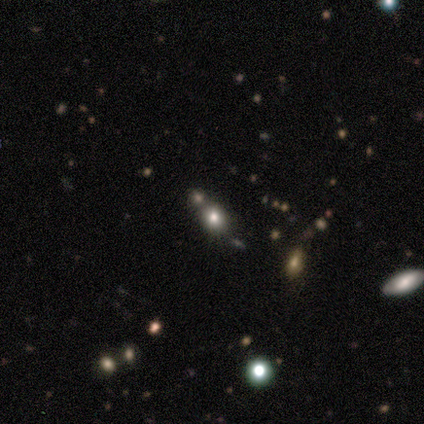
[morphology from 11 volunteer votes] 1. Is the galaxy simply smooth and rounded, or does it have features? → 45% smooth (tied), 45% featured or disk (tied), 9% star or artifact.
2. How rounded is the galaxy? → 60% in between, 40% round, 0% cigar-shaped.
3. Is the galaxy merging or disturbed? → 70% none, 20% merger, 10% minor disturbance, 0% major disturbance.